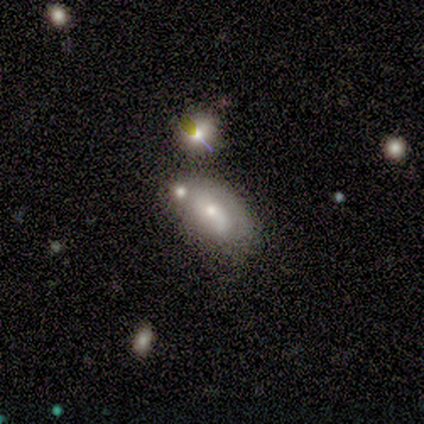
Volunteers were most divided on "how rounded" (2-way tie): round: 50%, in between: 50%, cigar-shaped: 0%; "merging" (3-way tie): none: 33%, minor disturbance: 33%, merger: 33%, major disturbance: 0%. More confident: smooth or featured — smooth (50%).